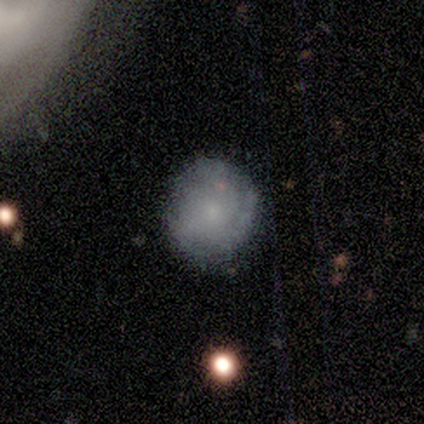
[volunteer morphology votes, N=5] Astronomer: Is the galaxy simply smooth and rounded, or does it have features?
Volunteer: smooth — 60%.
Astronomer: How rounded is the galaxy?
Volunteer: round — 100%.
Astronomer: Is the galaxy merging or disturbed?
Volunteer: none — 100%.